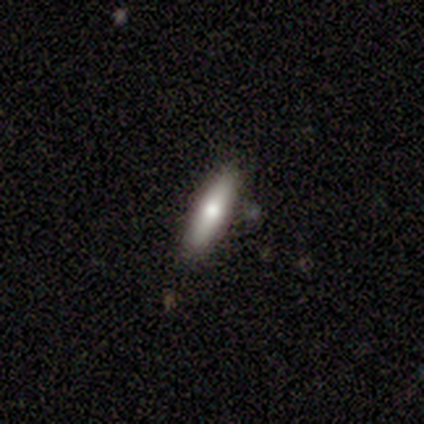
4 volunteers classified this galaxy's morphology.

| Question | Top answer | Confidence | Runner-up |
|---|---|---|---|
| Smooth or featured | smooth | 50% | tied: featured or disk (50%) |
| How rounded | cigar-shaped | 100% | — |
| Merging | none | 100% | — |